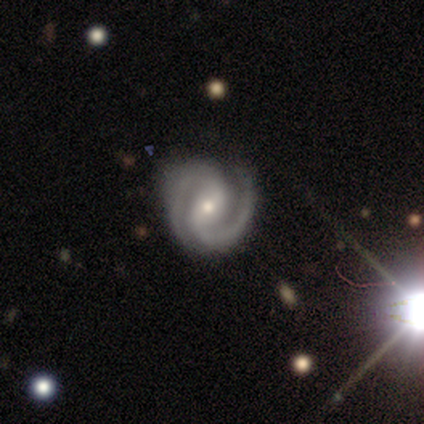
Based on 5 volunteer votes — Overall: featured or disk (100%). Edge-on disk: no (100%). Bar: strong (40%, tied with no). Spiral arms: yes (100%). Spiral arm count: 2 (100%). Spiral winding: tight (60%; medium 40%). Bulge size: moderate (60%; small 40%). Merging: none (60%; minor disturbance 40%).